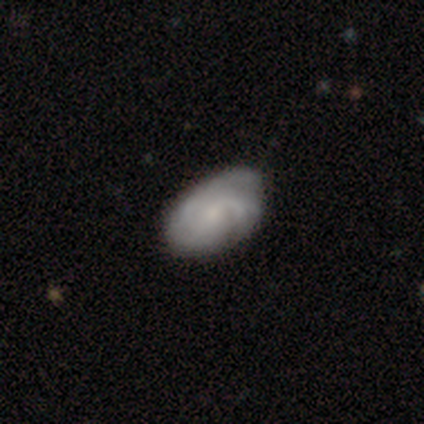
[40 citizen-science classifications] Morphology: type=featured or disk (80%); edge-on=no (100%); bar=no (75%); spiral arms=yes (97%); winding=medium (48%); arm count=3 (35%); bulge=small (59%); merging=none (46%).